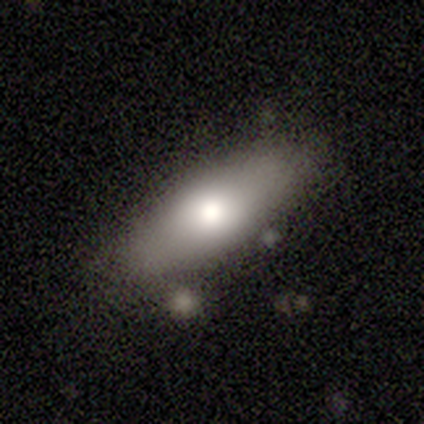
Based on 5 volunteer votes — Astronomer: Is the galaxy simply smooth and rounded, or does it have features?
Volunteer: featured or disk — 60% (runner-up: smooth, 40%).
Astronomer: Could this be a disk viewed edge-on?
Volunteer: yes — 67%.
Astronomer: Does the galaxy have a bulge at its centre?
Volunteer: boxy — 50%, tied with rounded at 50%.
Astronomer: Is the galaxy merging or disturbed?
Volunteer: none — 80%.